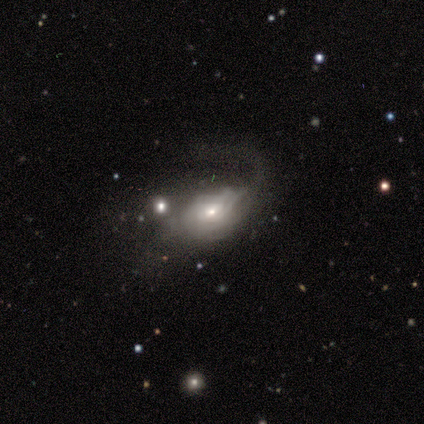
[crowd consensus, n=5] featured or disk 60%, smooth 40%, star or artifact 0%. Down the decision tree: edge-on disk — no (100%); bar — weak (67%); spiral arms — yes (100%); spiral arm count — 1 (67%); spiral winding — tight (33%, tied with medium and loose); bulge size — small (100%); merging — minor disturbance (40%, tied with major disturbance).